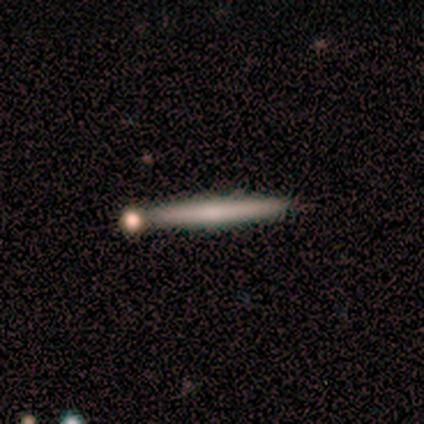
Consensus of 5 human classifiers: Smooth or featured? 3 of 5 (60%) said smooth. How rounded? 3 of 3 (100%) said cigar-shaped. Merging? 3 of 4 (75%) said none.